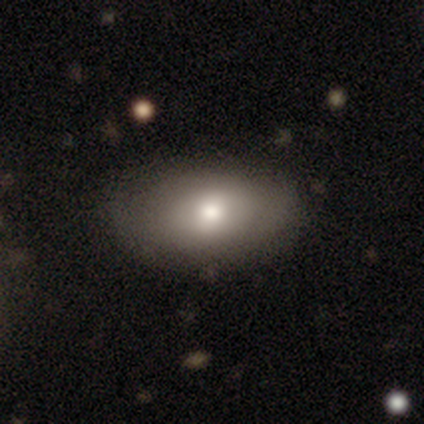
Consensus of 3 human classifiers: A smooth galaxy with no disk features (100%) that is in between round and cigar-shaped (100%). Merging: none (100%).